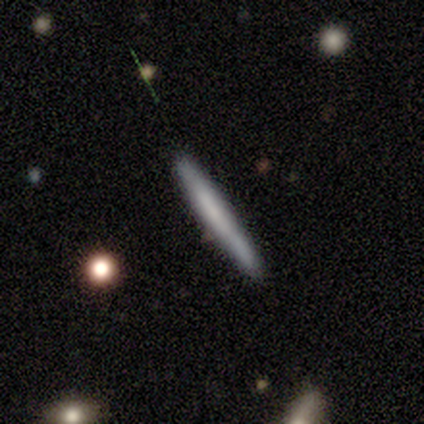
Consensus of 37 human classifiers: A smooth galaxy with no disk features (73%) that is cigar-shaped (100%).

Vote fractions:
- Smooth or featured? smooth: 73% / featured or disk: 22% / star or artifact: 5%
- How rounded? cigar-shaped: 100% / round: 0% / in between: 0%
- Merging? none: 94% / minor disturbance: 6% / major disturbance: 0% / merger: 0%